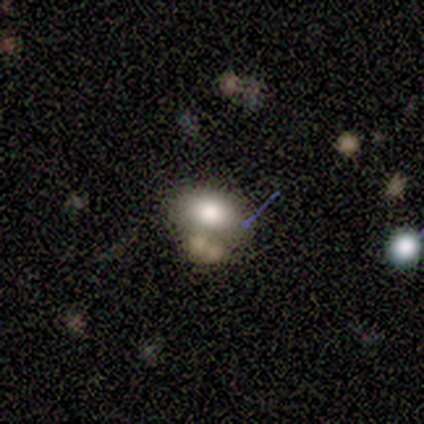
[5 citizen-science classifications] Smooth or featured: smooth — 40% (tied with star or artifact — 40%)
How rounded: round — 50% (tied with in between — 50%)
Merging: none — 33% (tied with minor disturbance — 33%; merger — 33%)